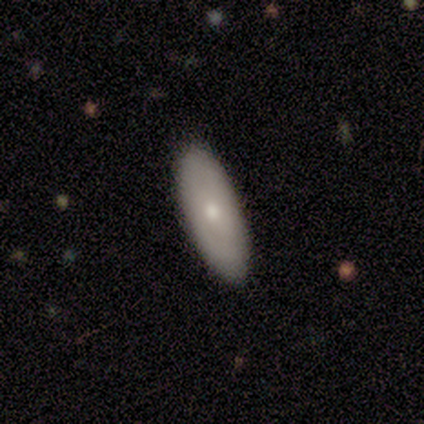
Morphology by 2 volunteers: type=featured or disk (50%, tied with star or artifact); edge-on=no (100%); bar=no (100%); spiral arms=no (100%); bulge=moderate (100%); merging=none (100%).